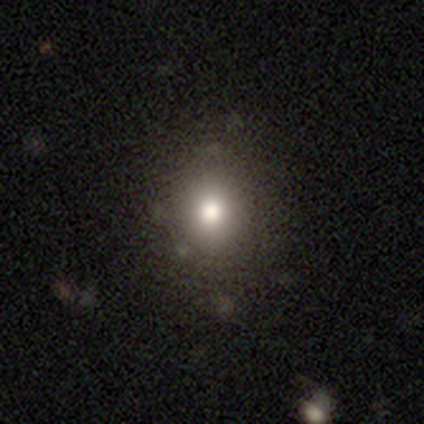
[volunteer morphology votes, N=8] Smooth or featured: smooth — 88% (featured or disk — 12%)
How rounded: round — 57% (in between — 43%)
Merging: none — 100%